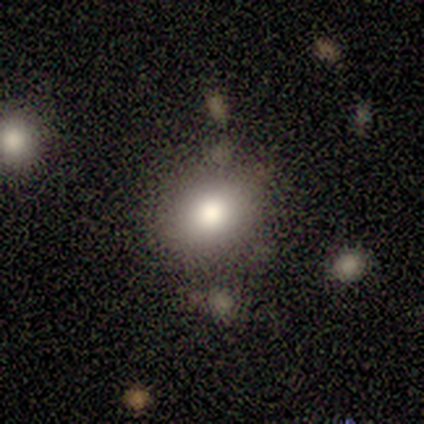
smooth 100%, featured or disk 0%, star or artifact 0%. Down the decision tree: how rounded — round (80%); merging — none (70%).